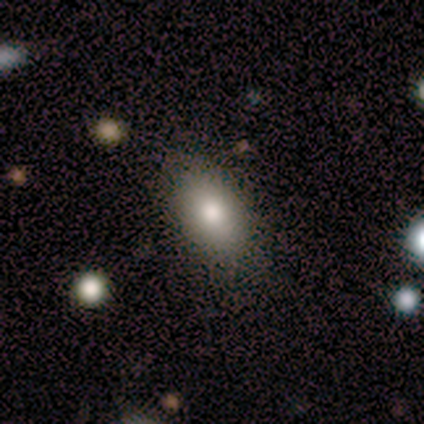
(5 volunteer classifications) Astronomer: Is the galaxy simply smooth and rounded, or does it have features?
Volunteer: smooth — 100%.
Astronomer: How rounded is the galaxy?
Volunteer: in between — 100%.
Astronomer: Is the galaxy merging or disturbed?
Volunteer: none — 60% (runner-up: minor disturbance, 40%).